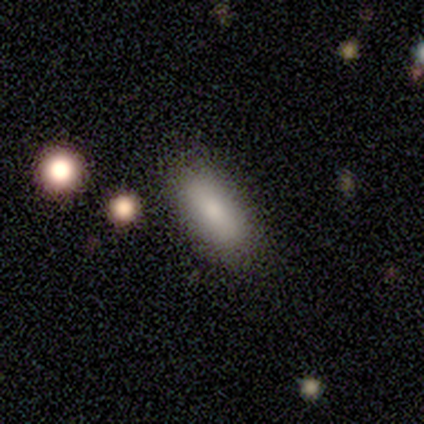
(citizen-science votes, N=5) Volunteers were most divided on "merging": none: 80%, minor disturbance: 20%, major disturbance: 0%, merger: 0%. More confident: smooth or featured — smooth (100%); how rounded — in between (100%).